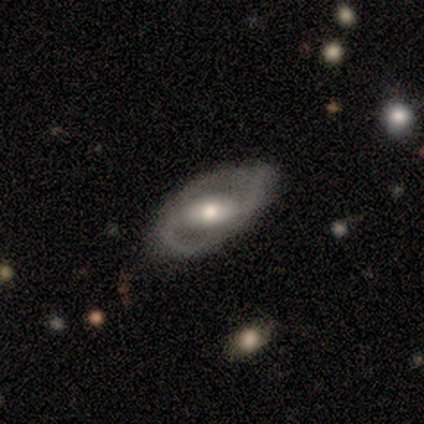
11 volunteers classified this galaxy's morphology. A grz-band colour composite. It shows a featured or disk galaxy (64%) with a weak bar (71%), 2 (100%) loose (60%) spiral arms (71%) and a moderate central bulge (57%). Merging: minor disturbance (60%).